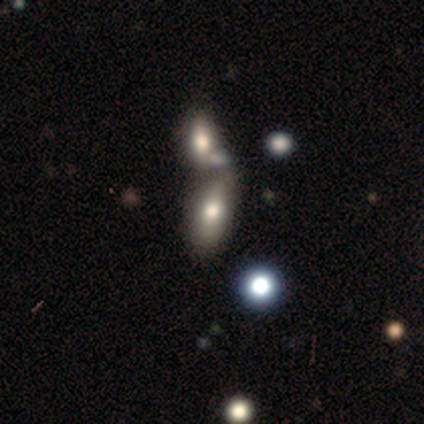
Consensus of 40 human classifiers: Morphology: type=smooth (70%); roundness=in between (89%); merging=merger (50%).